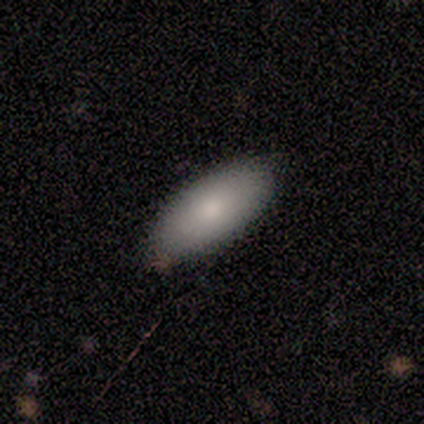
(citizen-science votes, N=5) A smooth galaxy with no disk features (100%) that is in between round and cigar-shaped (80%).

Vote fractions:
- Smooth or featured? smooth: 100% / featured or disk: 0% / star or artifact: 0%
- How rounded? in between: 80% / cigar-shaped: 20% / round: 0%
- Merging? none: 80% / minor disturbance: 20% / major disturbance: 0% / merger: 0%